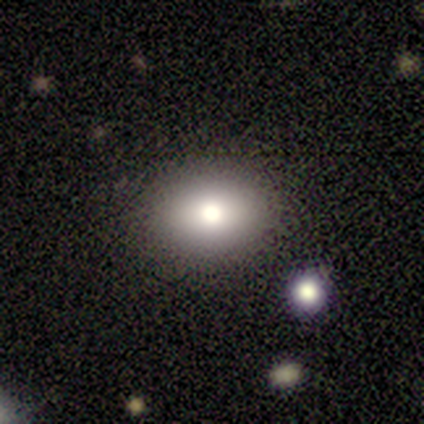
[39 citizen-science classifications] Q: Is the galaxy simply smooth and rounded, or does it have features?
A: smooth — 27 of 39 (69%).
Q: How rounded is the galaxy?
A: in between — 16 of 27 (59%).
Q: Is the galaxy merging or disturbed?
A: none — 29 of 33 (88%).